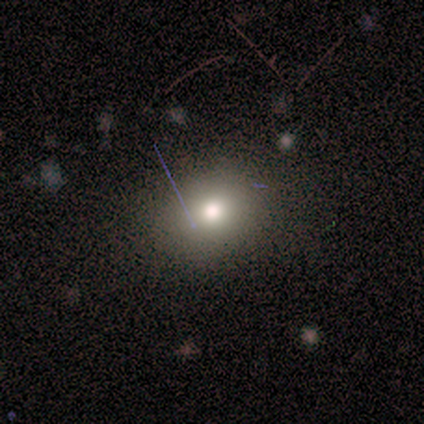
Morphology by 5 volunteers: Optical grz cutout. It shows a smooth galaxy with no disk features (60%) that is in between round and cigar-shaped (67%). Merging: none (100%).